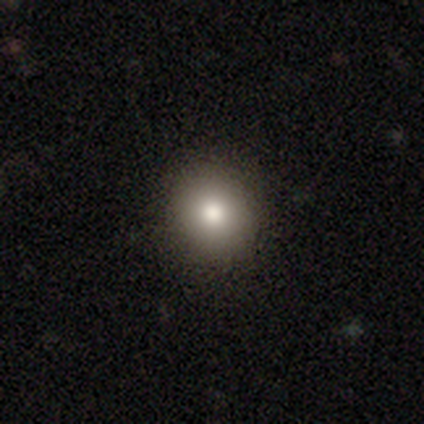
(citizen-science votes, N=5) This is clearly a smooth galaxy (80%). How rounded: likely round (75%). Merging: clearly none (100%).